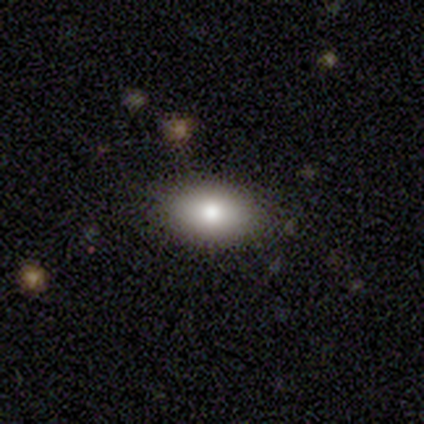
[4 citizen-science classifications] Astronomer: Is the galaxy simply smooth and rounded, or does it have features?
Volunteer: smooth — 75%.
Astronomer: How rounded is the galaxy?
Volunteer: in between — 100%.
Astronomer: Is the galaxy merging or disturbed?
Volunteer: none — 50%, tied with minor disturbance at 50%.